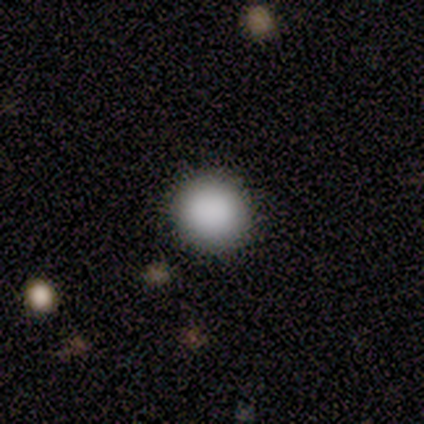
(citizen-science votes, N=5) smooth 100%, featured or disk 0%, star or artifact 0%. Down the decision tree: how rounded — round (100%); merging — none (80%).